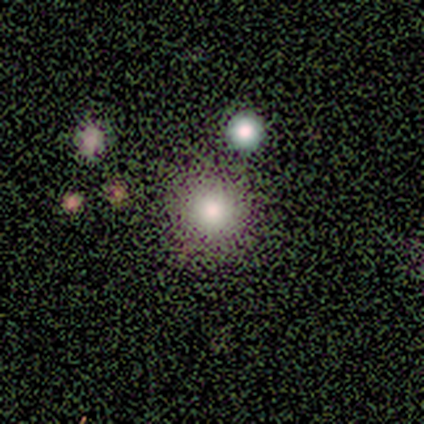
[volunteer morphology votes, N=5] Smooth or featured?
  - smooth: 100% *
  - featured or disk: 0%
  - star or artifact: 0%
How rounded?
  - round: 100% *
  - in between: 0%
  - cigar-shaped: 0%
Merging?
  - none: 40% * (tied)
  - minor disturbance: 40% * (tied)
  - merger: 20%
  - major disturbance: 0%